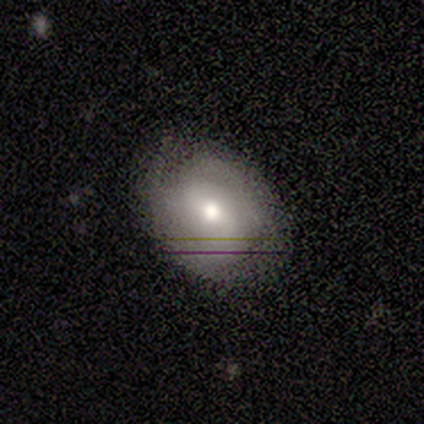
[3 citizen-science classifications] smooth-or-featured: featured or disk: 67% | smooth: 33% | star or artifact: 0%
  disk-edge-on: no: 100% | yes: 0%
    bar: weak: 100% | strong: 0% | no: 0%
    has-spiral-arms: yes: 100% | no: 0%
      spiral-winding: medium: 50% (tied) | loose: 50% (tied) | tight: 0%
      spiral-arm-count: 2: 100% | 1: 0% | 3: 0% | 4: 0% | more than 4: 0% | can't tell: 0%
    bulge-size: moderate: 100% | dominant: 0% | large: 0% | small: 0% | none: 0%
  merging: none: 100% | minor disturbance: 0% | major disturbance: 0% | merger: 0%